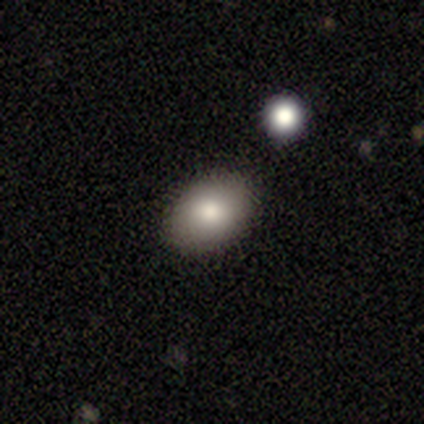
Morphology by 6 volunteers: Q: Smooth or featured?
A: smooth (83%); runner-up: star or artifact (17%)
Q: How rounded?
A: in between (100%)
Q: Merging?
A: none (100%)